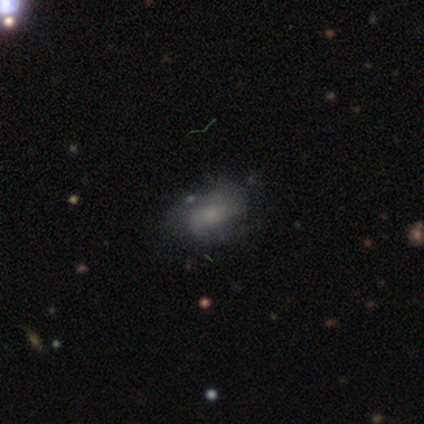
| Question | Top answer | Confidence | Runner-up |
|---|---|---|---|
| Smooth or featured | smooth | 50% | tied: featured or disk (50%) |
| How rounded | in between | 100% | — |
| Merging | none | 75% | minor disturbance (25%) |